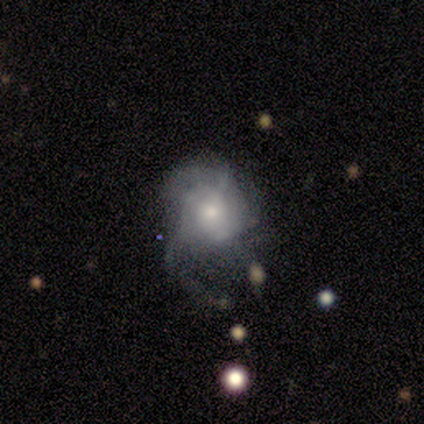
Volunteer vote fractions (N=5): Volunteers were most divided on "smooth or featured": featured or disk: 60%, smooth: 40%, star or artifact: 0%. More confident: edge-on disk — no (100%); bar — no (100%); spiral arms — yes (100%); spiral winding — tight (67%); spiral arm count — can't tell (67%); bulge size — moderate (67%); merging — major disturbance (60%).